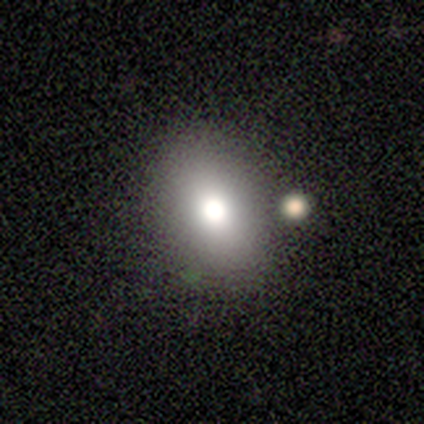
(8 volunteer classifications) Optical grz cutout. It shows a smooth galaxy with no disk features (62%) that is in between round and cigar-shaped (100%). Merging: none (100%).